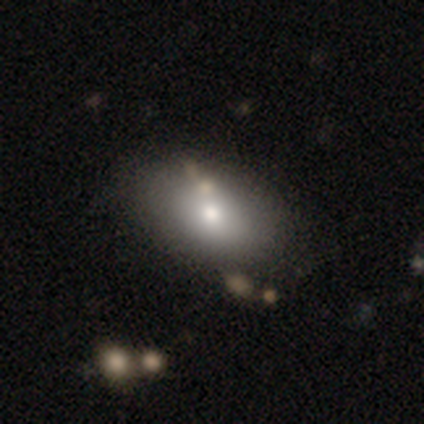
Overall: smooth (100%). How rounded: in between (100%). Merging: none (60%; minor disturbance 20%).